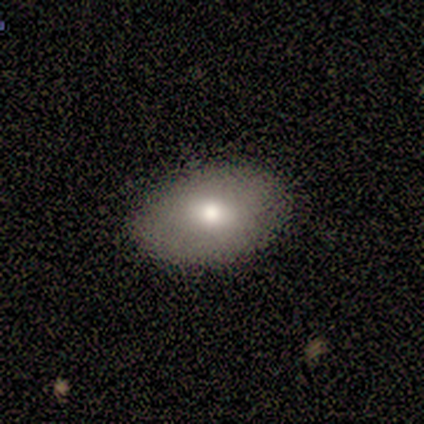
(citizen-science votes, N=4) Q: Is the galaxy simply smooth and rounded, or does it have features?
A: smooth — 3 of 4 (75%).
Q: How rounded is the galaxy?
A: in between — 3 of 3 (100%).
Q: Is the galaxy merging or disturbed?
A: none — 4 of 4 (100%).